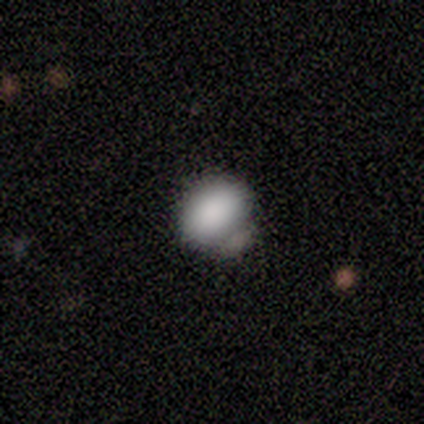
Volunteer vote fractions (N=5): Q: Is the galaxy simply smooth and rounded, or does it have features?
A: smooth — 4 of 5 (80%).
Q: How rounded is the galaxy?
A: in between — 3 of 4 (75%).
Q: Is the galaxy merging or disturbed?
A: none — 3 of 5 (60%).